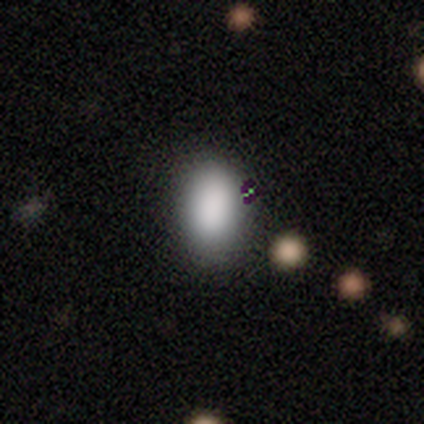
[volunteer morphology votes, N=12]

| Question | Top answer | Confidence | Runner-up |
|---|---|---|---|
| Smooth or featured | smooth | 92% | star or artifact (8%) |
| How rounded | in between | 91% | round (9%) |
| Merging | none | 100% | — |